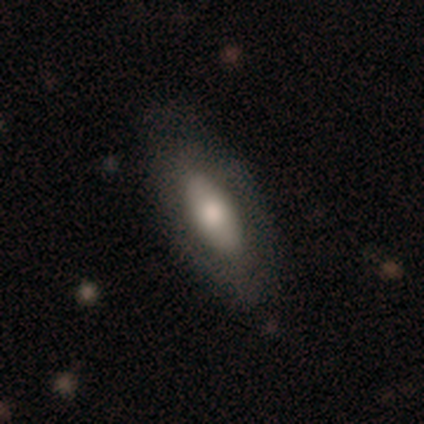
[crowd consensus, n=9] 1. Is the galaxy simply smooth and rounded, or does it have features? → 56% featured or disk, 44% smooth, 0% star or artifact.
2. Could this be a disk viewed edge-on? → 100% no, 0% yes.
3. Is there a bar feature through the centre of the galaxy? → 80% no, 20% weak, 0% strong.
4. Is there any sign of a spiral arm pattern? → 80% no, 20% yes.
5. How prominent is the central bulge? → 40% large (tied), 40% moderate (tied), 20% small, 0% dominant, 0% none.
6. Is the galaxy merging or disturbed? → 89% none, 11% minor disturbance, 0% major disturbance, 0% merger.